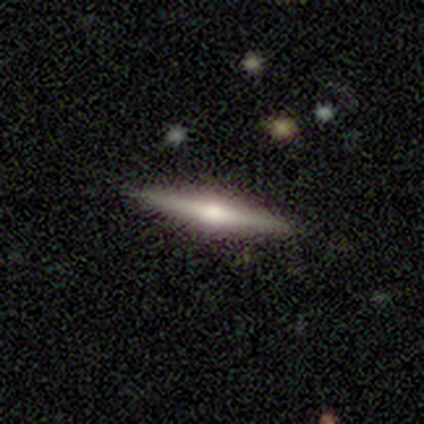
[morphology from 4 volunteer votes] Smooth or featured?
  - smooth: 50% * (tied)
  - featured or disk: 50% * (tied)
  - star or artifact: 0%
How rounded?
  - cigar-shaped: 100% *
  - round: 0%
  - in between: 0%
Merging?
  - none: 100% *
  - minor disturbance: 0%
  - major disturbance: 0%
  - merger: 0%